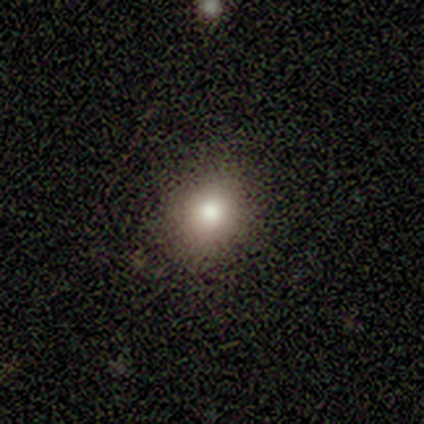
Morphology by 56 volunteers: smooth-or-featured: smooth: 79% | featured or disk: 16% | star or artifact: 5%
  how-rounded: round: 66% | in between: 34% | cigar-shaped: 0%
  merging: none: 94% | minor disturbance: 4% | major disturbance: 2% | merger: 0%